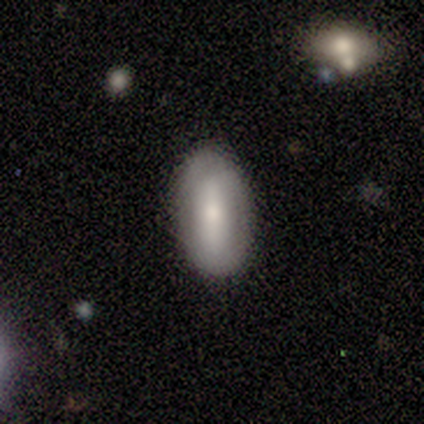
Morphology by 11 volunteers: Smooth or featured: smooth — 64% (featured or disk — 27%)
How rounded: in between — 100%
Merging: none — 100%